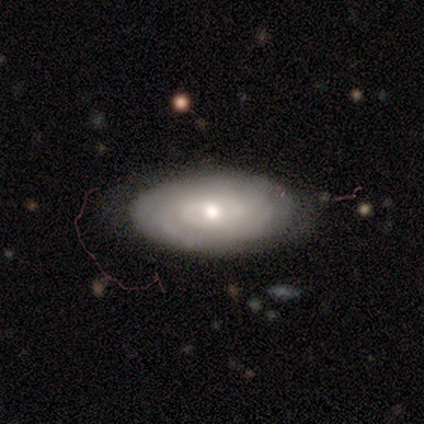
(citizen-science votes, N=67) Smooth or featured? featured or disk (51%)
Edge-on disk? no (94%)
Bar? no (88%)
Spiral arms? yes (78%)
Spiral winding? tight (76%)
Spiral arm count? can't tell (68%)
Bulge size? moderate (66%)
Merging? none (46%)